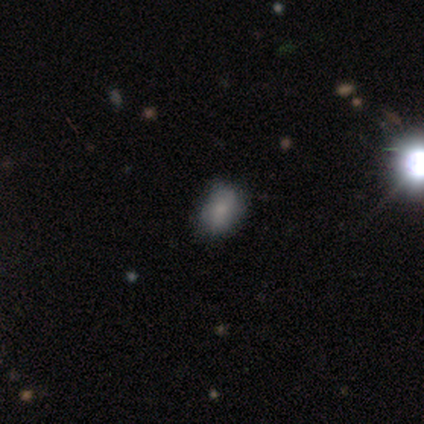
Smooth or featured?
  - smooth: 100% *
  - featured or disk: 0%
  - star or artifact: 0%
How rounded?
  - in between: 60% *
  - round: 40%
  - cigar-shaped: 0%
Merging?
  - none: 80% *
  - minor disturbance: 20%
  - major disturbance: 0%
  - merger: 0%